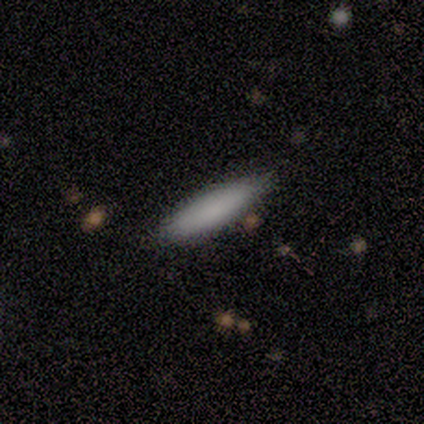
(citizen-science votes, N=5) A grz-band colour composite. It shows a smooth galaxy with no disk features (80%) that is cigar-shaped (75%). Merging: none (80%).